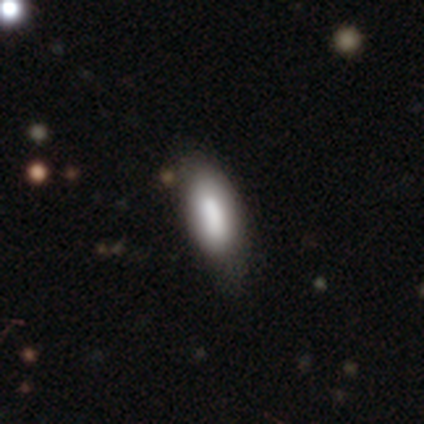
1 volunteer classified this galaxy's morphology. Consensus on every question: smooth or featured — smooth (100%); how rounded — in between (100%); merging — minor disturbance (100%).